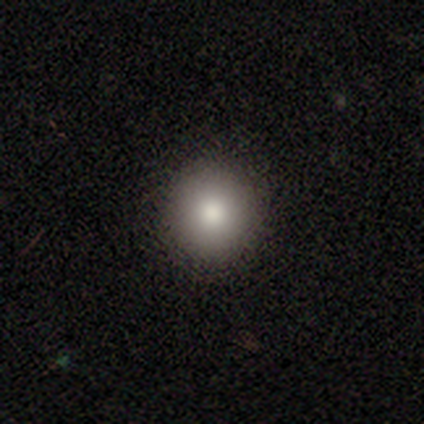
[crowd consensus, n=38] Smooth or featured? smooth (76%)
How rounded? round (97%)
Merging? none (91%)